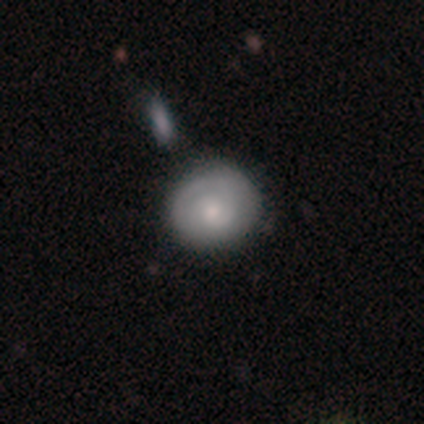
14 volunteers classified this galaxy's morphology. This is possibly a smooth galaxy (50%, tied with featured or disk). How rounded: clearly round (100%). Merging: clearly none (86%).